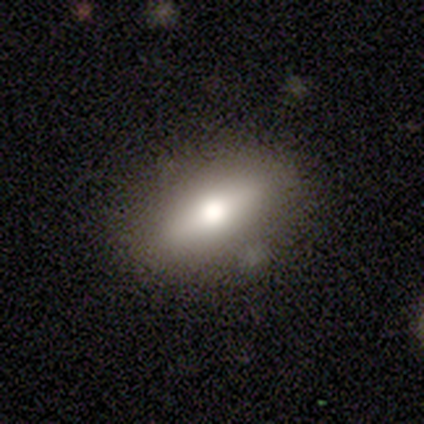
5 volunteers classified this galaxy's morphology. Volunteers were most divided on "how rounded": in between: 80%, cigar-shaped: 20%, round: 0%. More confident: smooth or featured — smooth (100%); merging — none (80%).